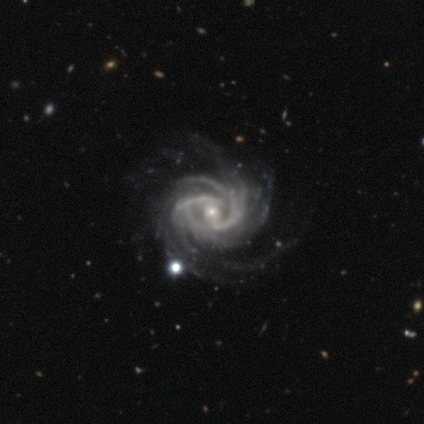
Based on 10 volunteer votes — Smooth or featured? 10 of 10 (100%) said featured or disk. Edge-on disk? 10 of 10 (100%) said no. Bar? 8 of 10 (80%) said weak. Spiral arms? 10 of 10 (100%) said yes. Spiral winding? 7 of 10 (70%) said tight. Spiral arm count? 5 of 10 (50%) said more than 4. Bulge size? 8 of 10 (80%) said small. Merging? 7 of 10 (70%) said none.